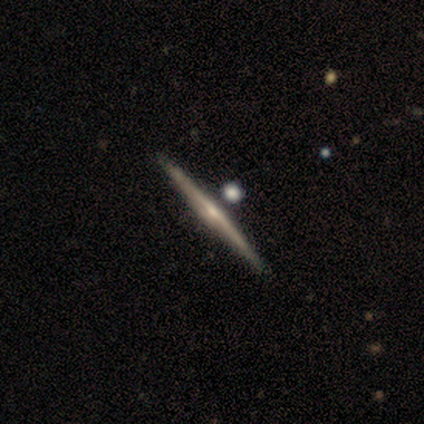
A smooth galaxy with no disk features (60%) that is cigar-shaped (100%). Merging: none (100%).